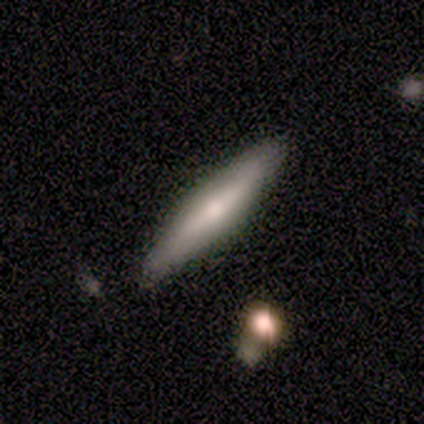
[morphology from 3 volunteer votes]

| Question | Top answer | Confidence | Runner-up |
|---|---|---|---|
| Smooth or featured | smooth | 67% | featured or disk (33%) |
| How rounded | cigar-shaped | 100% | — |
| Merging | none | 100% | — |